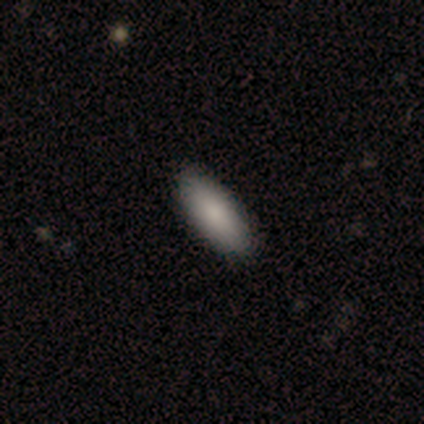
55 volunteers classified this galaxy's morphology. Volunteers were most divided on "smooth or featured": smooth: 78%, featured or disk: 15%, star or artifact: 7%. More confident: merging — none (92%); how rounded — in between (84%).